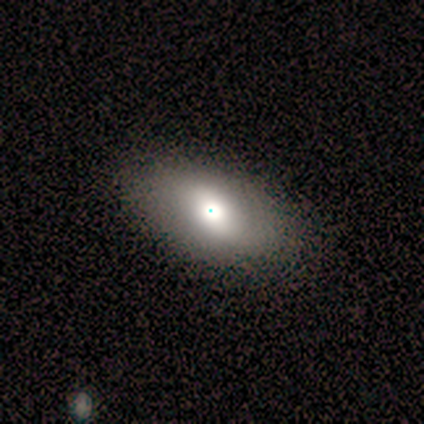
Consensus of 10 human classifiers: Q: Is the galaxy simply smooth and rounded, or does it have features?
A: smooth — 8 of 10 (80%).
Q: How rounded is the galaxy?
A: in between — 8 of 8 (100%).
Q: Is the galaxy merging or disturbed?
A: none — 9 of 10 (90%).